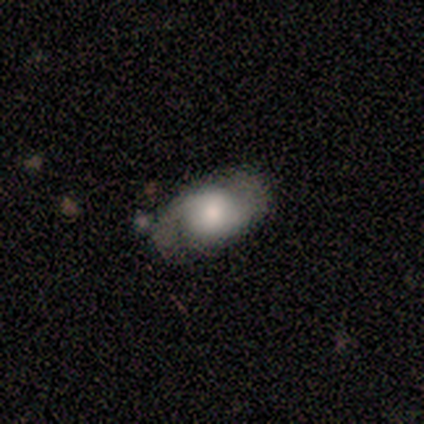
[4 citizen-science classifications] This appears to be a featured or disk galaxy (75%) with a weak bar (67%), 2 (100%) loose (100%) spiral arms (67%) and a large central bulge (33%, tied with moderate and small). Merging: none (100%).